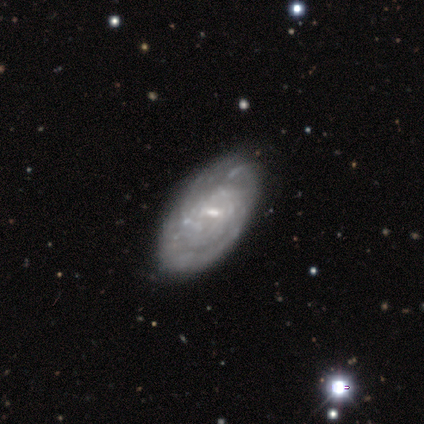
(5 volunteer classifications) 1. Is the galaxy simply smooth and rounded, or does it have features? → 80% featured or disk, 20% star or artifact, 0% smooth.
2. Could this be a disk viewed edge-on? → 100% no, 0% yes.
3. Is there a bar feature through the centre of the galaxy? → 75% weak, 25% no, 0% strong.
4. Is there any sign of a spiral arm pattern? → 75% yes, 25% no.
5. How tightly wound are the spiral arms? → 100% tight, 0% medium, 0% loose.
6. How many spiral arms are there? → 67% can't tell, 33% 2, 0% 1, 0% 3, 0% 4, 0% more than 4.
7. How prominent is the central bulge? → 100% small, 0% dominant, 0% large, 0% moderate, 0% none.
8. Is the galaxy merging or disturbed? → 50% minor disturbance, 25% none, 25% major disturbance, 0% merger.